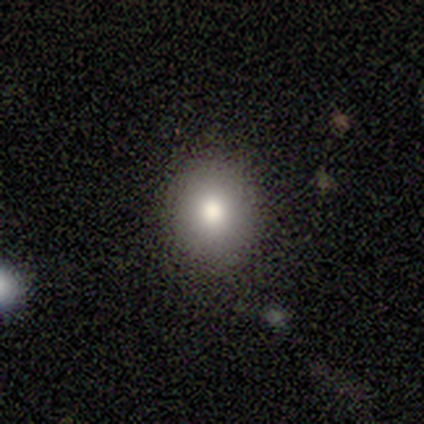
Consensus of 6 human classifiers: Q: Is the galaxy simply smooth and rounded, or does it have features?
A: smooth — 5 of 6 (83%).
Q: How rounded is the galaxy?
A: round — 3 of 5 (60%).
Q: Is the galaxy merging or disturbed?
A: none — 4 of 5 (80%).